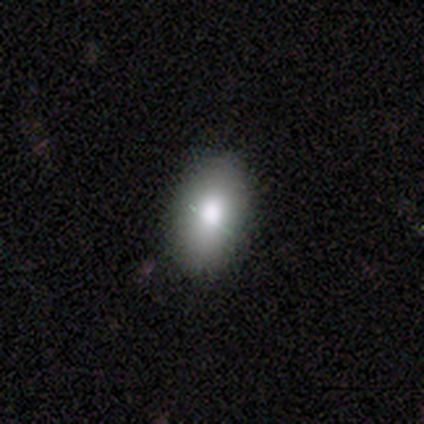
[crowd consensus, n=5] Smooth or featured? smooth (80%)
How rounded? in between (100%)
Merging? none (100%)